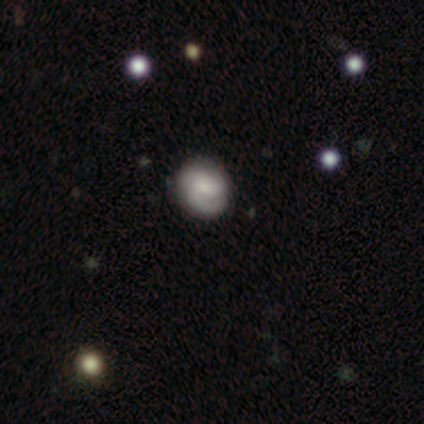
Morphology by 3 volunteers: This appears to be a smooth galaxy with no disk features (67%) that is round (50%, tied with in between). Merging: none (67%).